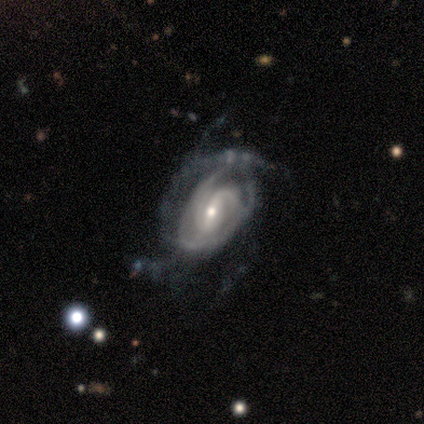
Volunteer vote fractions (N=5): This appears to be a featured or disk galaxy (100%) with a weak bar (60%), tight (60%) spiral arms (100%) and a moderate central bulge (60%). Merging: major disturbance (60%).